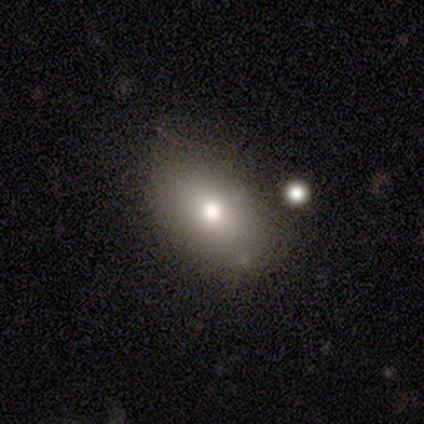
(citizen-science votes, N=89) This is likely a smooth galaxy (73%). How rounded: likely in between (77%). Merging: clearly none (80%).